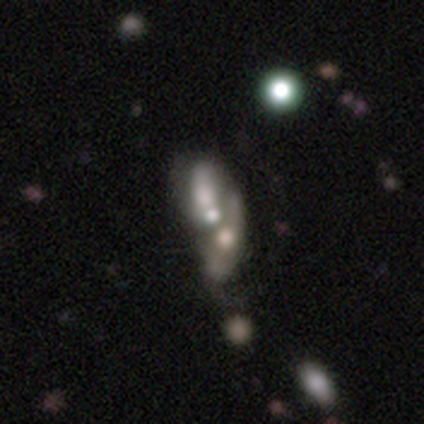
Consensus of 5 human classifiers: Morphology: type=featured or disk (40%, tied with star or artifact); edge-on=no (100%); bar=strong (50%, tied with no); spiral arms=no (100%); bulge=large (50%, tied with moderate); merging=merger (100%).